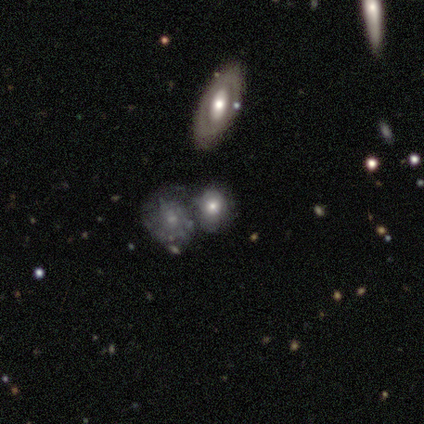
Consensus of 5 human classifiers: smooth_or_featured: smooth (p=0.60) [alt: featured or disk p=0.40]
how_rounded: round (p=1.00)
merging: none (p=0.40) [tied with: minor disturbance p=0.40]